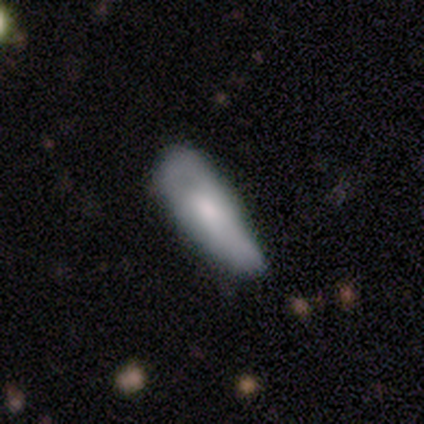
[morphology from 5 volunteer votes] Smooth or featured? 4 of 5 (80%) said smooth. How rounded? 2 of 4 (50%, tied with cigar-shaped) said in between. Merging? 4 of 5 (80%) said none.